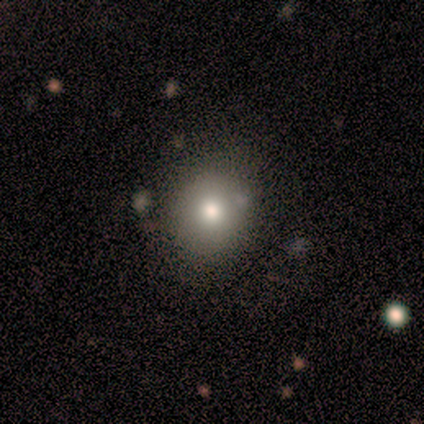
A smooth galaxy with no disk features (40%, tied with star or artifact) that is round (50%, tied with in between).

Vote fractions:
- Smooth or featured? smooth: 40% (tied) / star or artifact: 40% (tied) / featured or disk: 20%
- How rounded? round: 50% (tied) / in between: 50% (tied) / cigar-shaped: 0%
- Merging? none: 67% / minor disturbance: 33% / major disturbance: 0% / merger: 0%